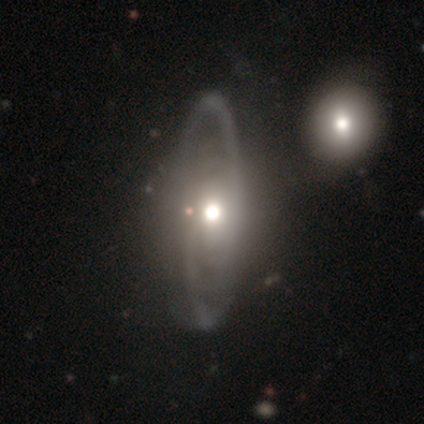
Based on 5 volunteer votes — This appears to be a featured or disk galaxy (100%) with a weak bar (50%, tied with no), 2 (100%) medium (100%) spiral arms (50%, tied with no) and a large central bulge (50%, tied with moderate). Merging: none (80%).